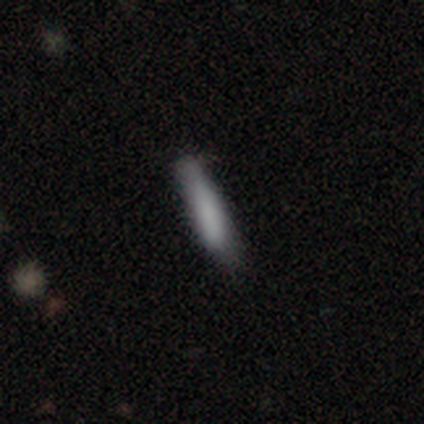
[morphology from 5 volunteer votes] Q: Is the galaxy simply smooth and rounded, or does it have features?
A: smooth — 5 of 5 (100%).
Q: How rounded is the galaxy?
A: cigar-shaped — 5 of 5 (100%).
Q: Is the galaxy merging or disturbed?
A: minor disturbance — 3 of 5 (60%).